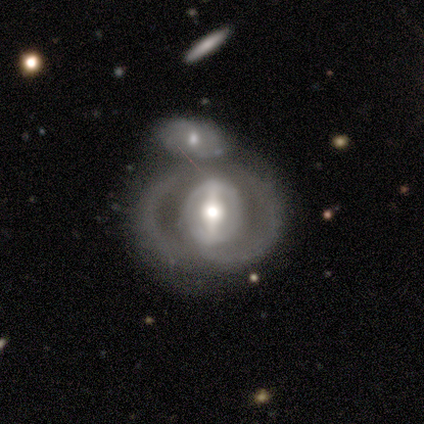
A featured or disk galaxy (87%) with a strong bar (74%), no spiral arms (55%) and a moderate central bulge (58%). Merging: merger (63%).